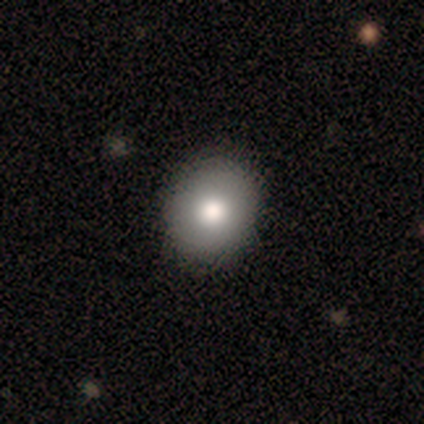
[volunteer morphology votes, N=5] smooth-or-featured: smooth: 100% | featured or disk: 0% | star or artifact: 0%
  how-rounded: round: 80% | in between: 20% | cigar-shaped: 0%
  merging: none: 60% | minor disturbance: 40% | major disturbance: 0% | merger: 0%